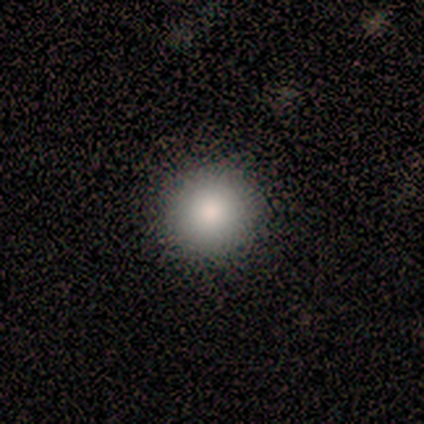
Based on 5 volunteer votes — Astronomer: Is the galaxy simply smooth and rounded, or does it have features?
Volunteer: smooth — 80%.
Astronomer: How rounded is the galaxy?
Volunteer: round — 100%.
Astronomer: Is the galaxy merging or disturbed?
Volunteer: none — 100%.